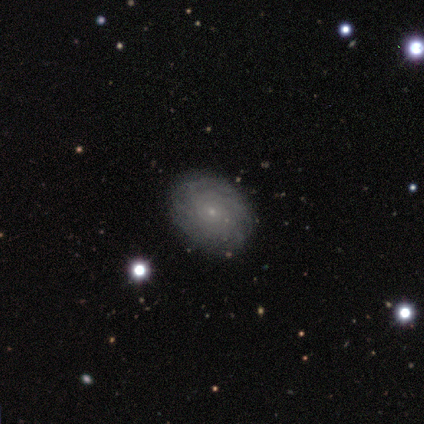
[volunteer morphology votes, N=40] A featured or disk galaxy (70%) with no bar (89%), tight (72%) spiral arms (93%) and a small central bulge (85%).

Vote fractions:
- Smooth or featured? featured or disk: 70% / smooth: 25% / star or artifact: 5%
- Edge-on disk? no: 96% / yes: 4%
- Bar? no: 89% / weak: 11% / strong: 0%
- Spiral arms? yes: 93% / no: 7%
- Spiral winding? tight: 72% / medium: 16% / loose: 12%
- Spiral arm count? can't tell: 68% / more than 4: 20% / 4: 8% / 2: 4% / 1: 0% / 3: 0%
- Bulge size? small: 85% / none: 7% / large: 4% / moderate: 4% / dominant: 0%
- Merging? none: 82% / minor disturbance: 13% / merger: 5% / major disturbance: 0%